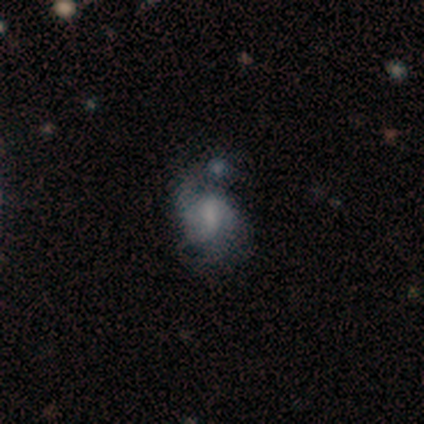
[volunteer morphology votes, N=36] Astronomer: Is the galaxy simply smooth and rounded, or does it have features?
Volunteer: featured or disk — 64%.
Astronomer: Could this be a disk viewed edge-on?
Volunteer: no — 96%.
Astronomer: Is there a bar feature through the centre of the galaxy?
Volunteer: weak — 50% (runner-up: no, 32%).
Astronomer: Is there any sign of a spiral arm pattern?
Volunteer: yes — 86%.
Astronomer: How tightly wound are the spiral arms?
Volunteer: loose — 47% (runner-up: medium, 42%).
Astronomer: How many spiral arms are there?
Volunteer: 2 — 74%.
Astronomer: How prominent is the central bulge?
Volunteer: none — 55%.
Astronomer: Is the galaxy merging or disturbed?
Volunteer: none — 35% (runner-up: major disturbance, 29%).